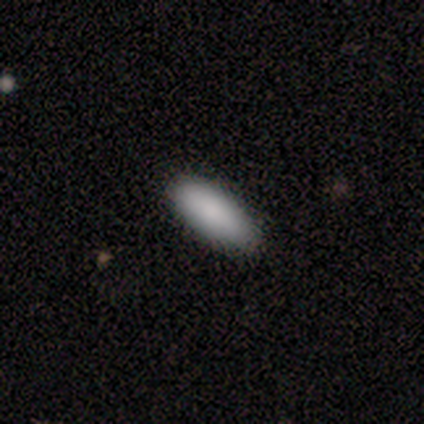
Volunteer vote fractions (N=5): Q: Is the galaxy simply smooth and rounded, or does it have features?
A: smooth — 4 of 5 (80%).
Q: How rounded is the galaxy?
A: in between — 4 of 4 (100%).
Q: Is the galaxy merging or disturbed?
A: none — 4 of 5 (80%).